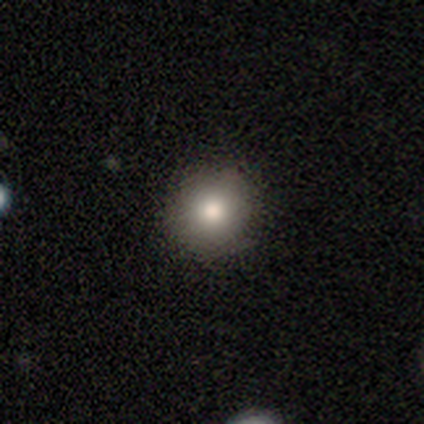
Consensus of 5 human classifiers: Smooth or featured: smooth — 80% (featured or disk — 20%)
How rounded: round — 75% (in between — 25%)
Merging: none — 100%